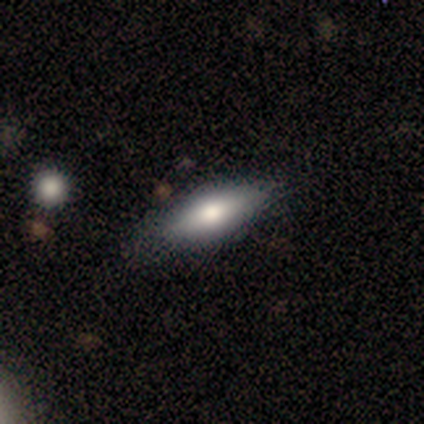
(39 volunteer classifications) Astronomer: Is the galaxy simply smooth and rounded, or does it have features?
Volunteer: smooth — 67%.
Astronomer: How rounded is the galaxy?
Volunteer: in between — 65%.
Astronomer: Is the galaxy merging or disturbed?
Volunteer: none — 86%.